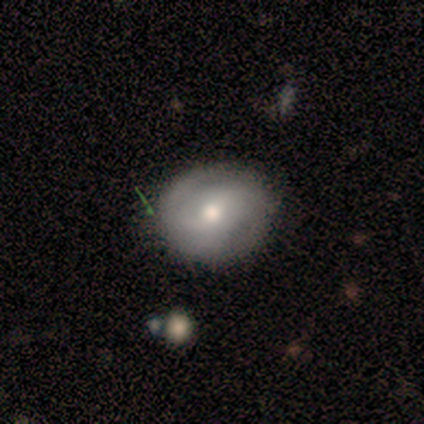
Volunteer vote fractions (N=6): Smooth or featured? 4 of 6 (67%) said featured or disk. Edge-on disk? 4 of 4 (100%) said no. Bar? 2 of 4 (50%, tied with no) said weak. Spiral arms? 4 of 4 (100%) said yes. Spiral winding? 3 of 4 (75%) said tight. Spiral arm count? 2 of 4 (50%) said 2. Bulge size? 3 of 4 (75%) said moderate. Merging? 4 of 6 (67%) said none.